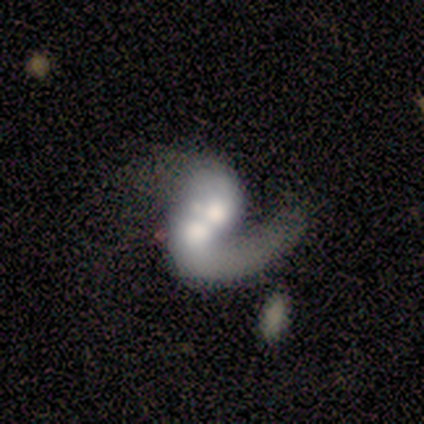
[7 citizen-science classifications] Q: Smooth or featured?
A: featured or disk (71%); runner-up: smooth (29%)
Q: Edge-on disk?
A: no (100%)
Q: Bar?
A: no (80%); runner-up: strong (20%)
Q: Spiral arms?
A: yes (80%); runner-up: no (20%)
Q: Spiral winding?
A: loose (75%); runner-up: medium (25%)
Q: Spiral arm count?
A: 1 (50%); tied with: 2 (50%)
Q: Bulge size?
A: moderate (80%); runner-up: large (20%)
Q: Merging?
A: merger (71%); runner-up: minor disturbance (14%)